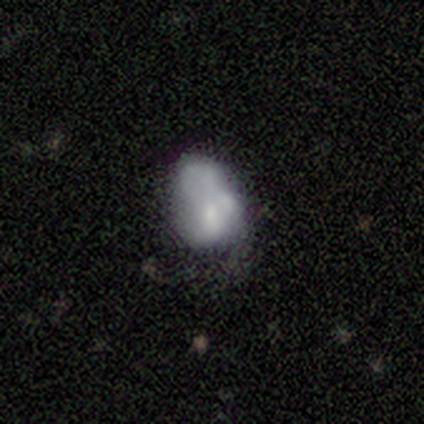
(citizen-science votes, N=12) Smooth or featured?
  - smooth: 75% *
  - star or artifact: 17%
  - featured or disk: 8%
How rounded?
  - in between: 78% *
  - round: 22%
  - cigar-shaped: 0%
Merging?
  - minor disturbance: 40% *
  - none: 30%
  - merger: 20%
  - major disturbance: 10%